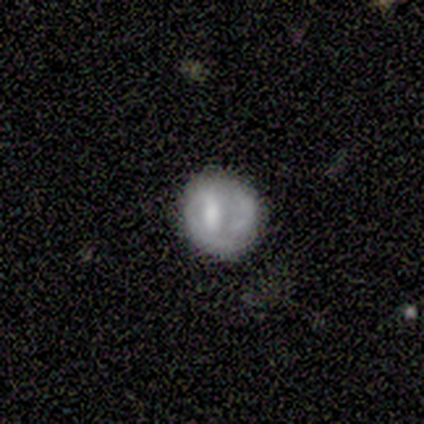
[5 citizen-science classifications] smooth 80%, featured or disk 20%, star or artifact 0%. Down the decision tree: how rounded — round (75%); merging — none (60%).